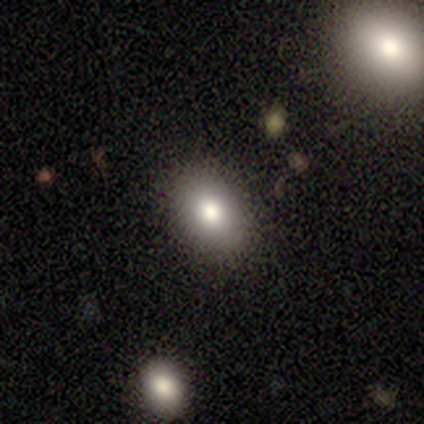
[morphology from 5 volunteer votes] Overall: smooth (80%). How rounded: in between (75%). Merging: none (80%).